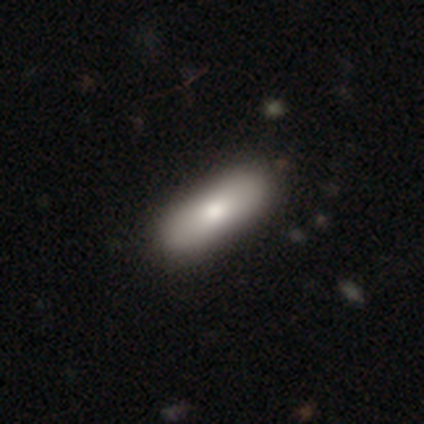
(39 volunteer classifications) This is likely a smooth galaxy (74%). How rounded: possibly in between (55%). Merging: marginally none (45%).